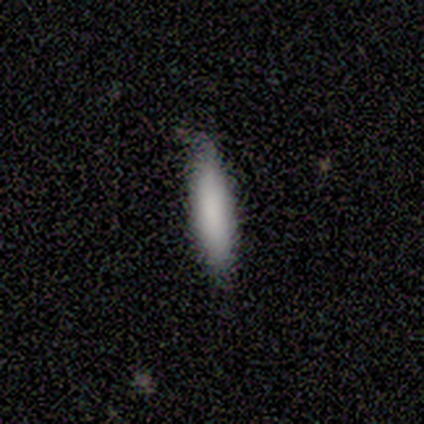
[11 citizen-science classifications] smooth 100%, featured or disk 0%, star or artifact 0%. Down the decision tree: how rounded — cigar-shaped (64%); merging — none (100%).